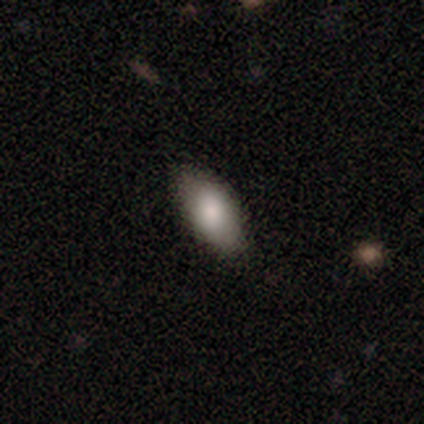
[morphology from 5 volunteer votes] Smooth or featured? smooth (100%)
How rounded? in between (100%)
Merging? none (80%)